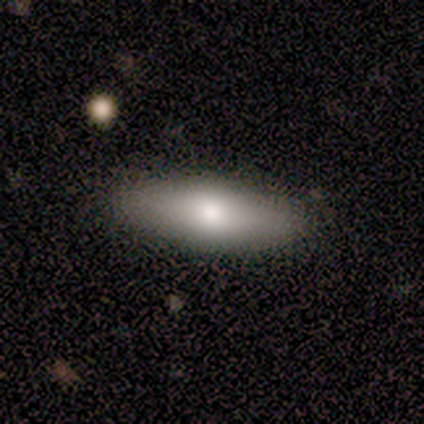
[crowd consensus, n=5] This appears to be a smooth galaxy with no disk features (40%, tied with featured or disk) that is in between round and cigar-shaped (50%, tied with cigar-shaped). Merging: none (100%).